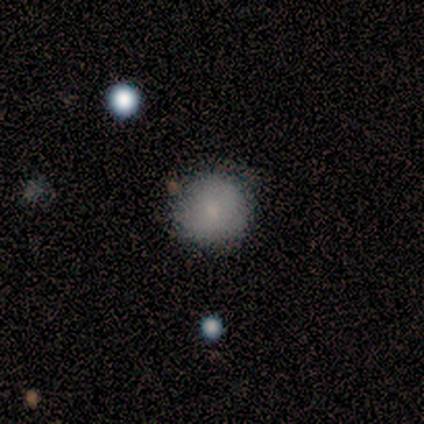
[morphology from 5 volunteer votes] smooth-or-featured: smooth: 80% | star or artifact: 20% | featured or disk: 0%
  how-rounded: round: 100% | in between: 0% | cigar-shaped: 0%
  merging: none: 100% | minor disturbance: 0% | major disturbance: 0% | merger: 0%